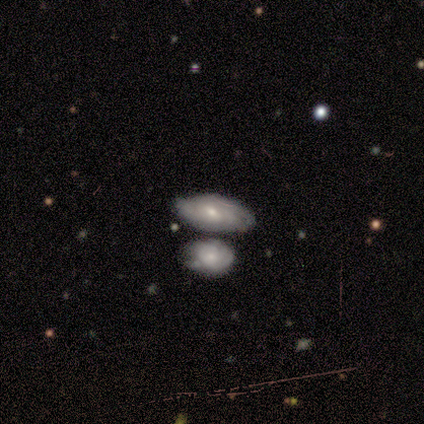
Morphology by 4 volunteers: smooth_or_featured: featured or disk (p=0.75) [alt: smooth p=0.25]
disk_edge_on: no (p=0.67) [alt: yes p=0.33]
bar: weak (p=0.50) [tied with: no p=0.50]
has_spiral_arms: yes (p=1.00)
spiral_winding: tight (p=0.50) [tied with: loose p=0.50]
spiral_arm_count: can't tell (p=1.00)
bulge_size: small (p=1.00)
merging: none (p=0.75) [alt: minor disturbance p=0.25]